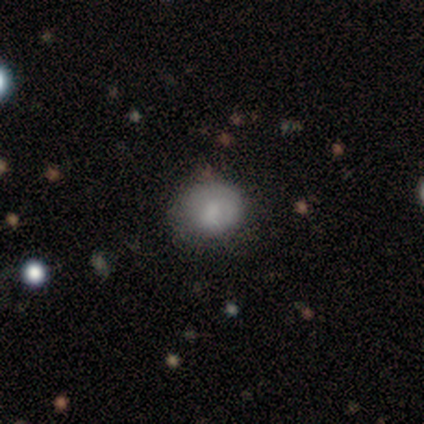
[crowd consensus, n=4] Smooth or featured: smooth — 100%
How rounded: round — 75% (cigar-shaped — 25%)
Merging: none — 50% (tied with minor disturbance — 50%)